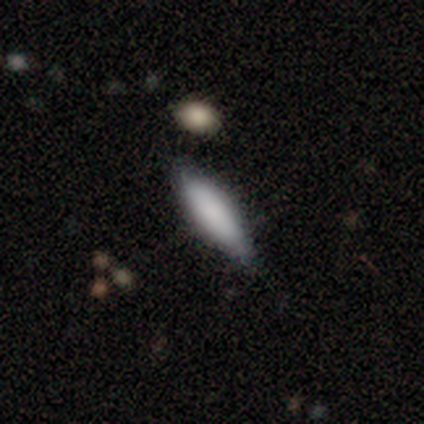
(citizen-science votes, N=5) Q: Smooth or featured?
A: smooth (100%)
Q: How rounded?
A: cigar-shaped (60%); runner-up: in between (40%)
Q: Merging?
A: none (100%)